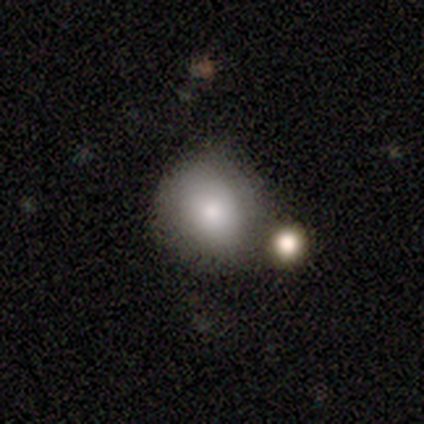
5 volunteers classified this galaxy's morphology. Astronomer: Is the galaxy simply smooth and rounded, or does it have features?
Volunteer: smooth — 60% (runner-up: featured or disk, 40%).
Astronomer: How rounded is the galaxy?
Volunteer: round — 67%.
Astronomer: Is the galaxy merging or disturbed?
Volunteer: none — 80%.